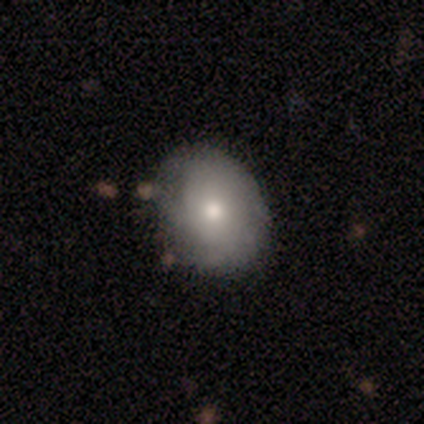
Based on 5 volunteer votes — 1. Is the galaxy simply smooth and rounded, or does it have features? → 60% smooth, 40% featured or disk, 0% star or artifact.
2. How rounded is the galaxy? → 67% round, 33% in between, 0% cigar-shaped.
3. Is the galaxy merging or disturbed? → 80% none, 20% minor disturbance, 0% major disturbance, 0% merger.